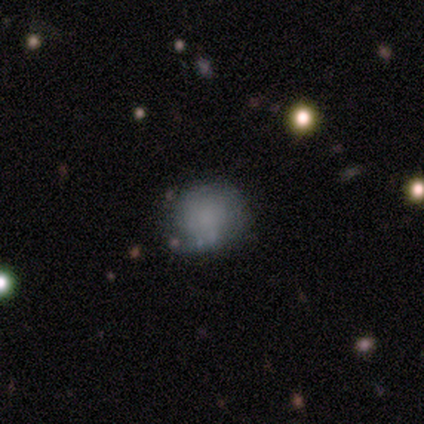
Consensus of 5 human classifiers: Morphology: type=smooth (80%); roundness=round (100%); merging=none (80%).